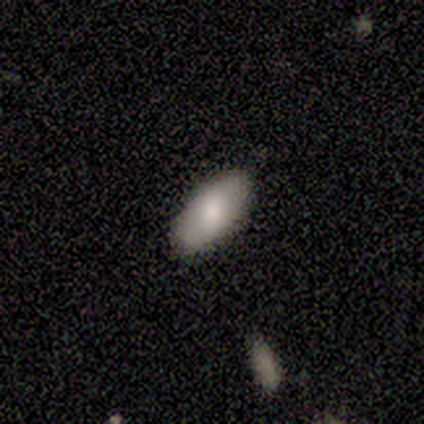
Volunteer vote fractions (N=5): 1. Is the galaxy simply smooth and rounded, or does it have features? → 80% smooth, 20% featured or disk, 0% star or artifact.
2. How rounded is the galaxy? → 100% in between, 0% round, 0% cigar-shaped.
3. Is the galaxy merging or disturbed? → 80% none, 20% minor disturbance, 0% major disturbance, 0% merger.